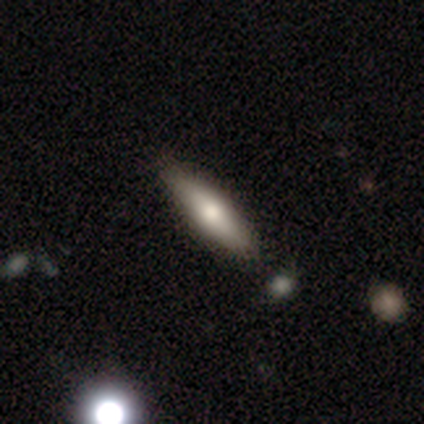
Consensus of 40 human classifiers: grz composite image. It shows a smooth galaxy with no disk features (62%) that is cigar-shaped (76%). Merging: none (84%).